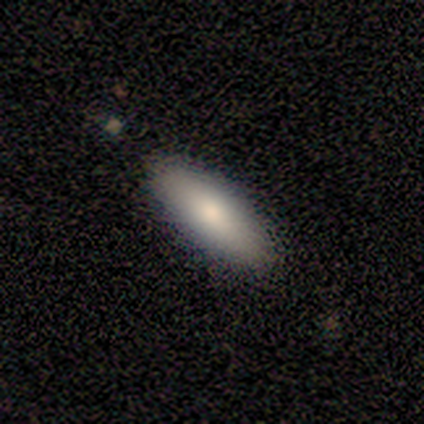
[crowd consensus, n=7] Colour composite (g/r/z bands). It shows a smooth galaxy with no disk features (100%) that is in between round and cigar-shaped (71%). Merging: none (100%).